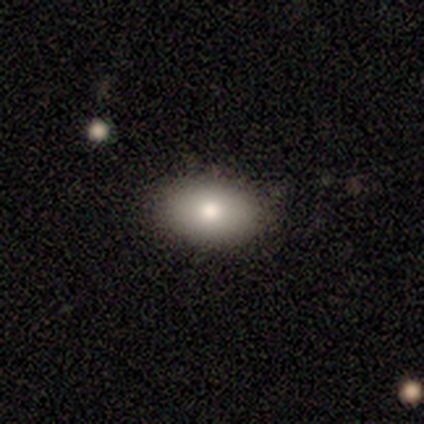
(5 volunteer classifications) smooth 80%, featured or disk 20%, star or artifact 0%. Down the decision tree: how rounded — in between (100%); merging — none (100%).